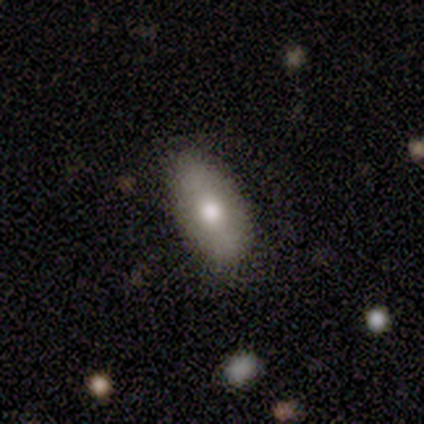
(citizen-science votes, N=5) Smooth or featured?
  - smooth: 80% *
  - star or artifact: 20%
  - featured or disk: 0%
How rounded?
  - in between: 75% *
  - cigar-shaped: 25%
  - round: 0%
Merging?
  - none: 75% *
  - minor disturbance: 25%
  - major disturbance: 0%
  - merger: 0%